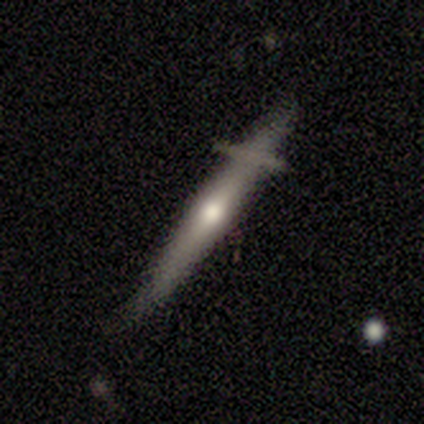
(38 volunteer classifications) featured or disk 61%, smooth 39%, star or artifact 0%. Down the decision tree: edge-on disk — yes (96%); edge-on bulge — rounded (73%); merging — none (71%).